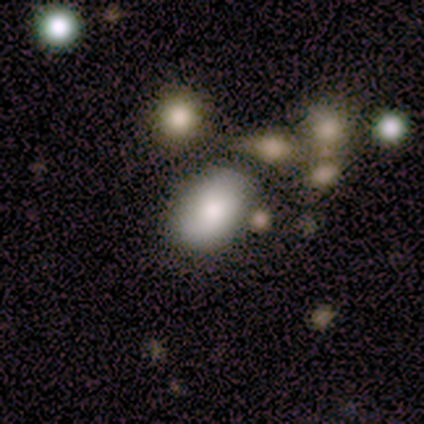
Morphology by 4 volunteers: A smooth galaxy with no disk features (100%) that is in between round and cigar-shaped (100%).

Vote fractions:
- Smooth or featured? smooth: 100% / featured or disk: 0% / star or artifact: 0%
- How rounded? in between: 100% / round: 0% / cigar-shaped: 0%
- Merging? none: 75% / minor disturbance: 25% / major disturbance: 0% / merger: 0%